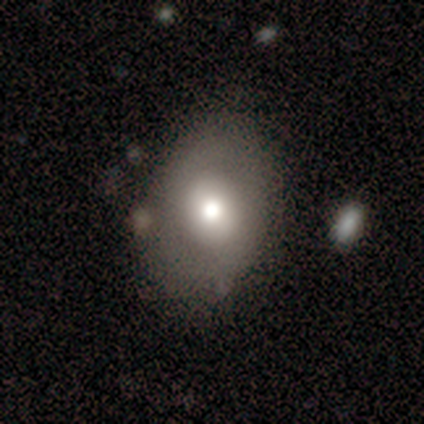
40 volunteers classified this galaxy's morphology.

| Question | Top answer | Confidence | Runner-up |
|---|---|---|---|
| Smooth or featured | smooth | 60% | featured or disk (35%) |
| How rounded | in between | 58% | round (38%) |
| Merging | none | 71% | minor disturbance (18%) |